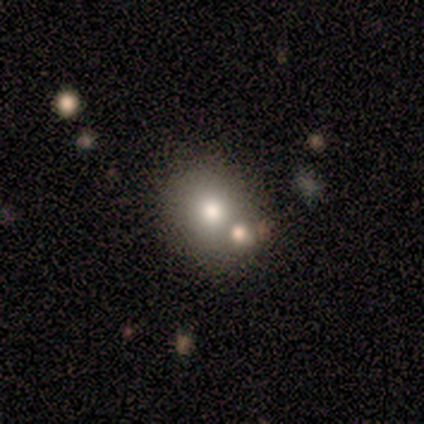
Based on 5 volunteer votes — Overall: featured or disk (60%; smooth 40%). Edge-on disk: no (100%). Bar: no (100%). Spiral arms: no (100%). Bulge size: large (67%; small 33%). Merging: none (100%).